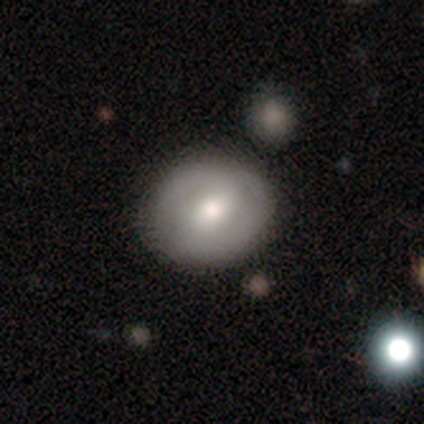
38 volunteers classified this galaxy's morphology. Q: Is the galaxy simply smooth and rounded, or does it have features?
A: smooth — 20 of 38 (53%).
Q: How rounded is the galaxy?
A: round — 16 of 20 (80%).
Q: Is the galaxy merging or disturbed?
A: none — 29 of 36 (81%).